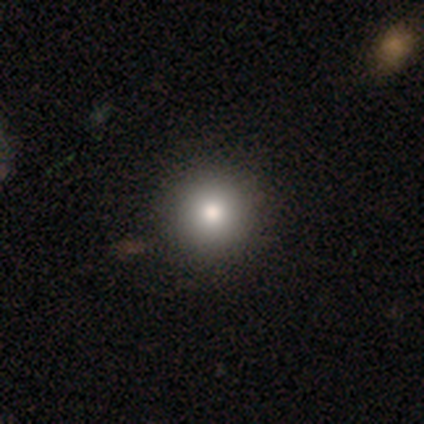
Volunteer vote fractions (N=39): Smooth or featured?
  - smooth: 79% *
  - featured or disk: 13%
  - star or artifact: 8%
How rounded?
  - round: 100% *
  - in between: 0%
  - cigar-shaped: 0%
Merging?
  - none: 64% *
  - minor disturbance: 3%
  - major disturbance: 0%
  - merger: 0%